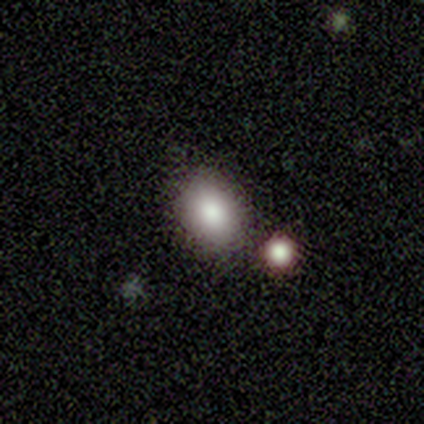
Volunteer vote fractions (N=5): This is clearly a smooth galaxy (80%). How rounded: possibly round (50%, tied with in between). Merging: likely none (60%).